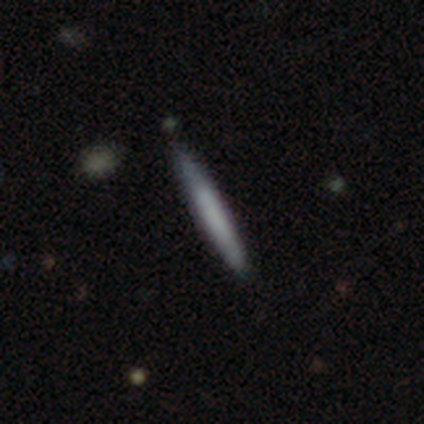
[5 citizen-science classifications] Smooth or featured: featured or disk — 60% (smooth — 40%)
Edge-on disk: yes — 67% (no — 33%)
Edge-on bulge: none — 100%
Merging: none — 100%